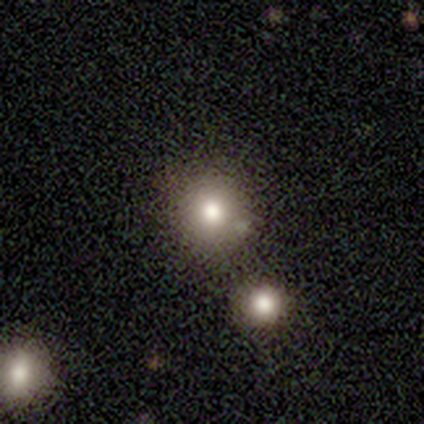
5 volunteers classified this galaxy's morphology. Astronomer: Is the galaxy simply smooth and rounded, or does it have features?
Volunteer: smooth — 80%.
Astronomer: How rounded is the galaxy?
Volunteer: round — 100%.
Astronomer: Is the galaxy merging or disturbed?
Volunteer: none — 100%.